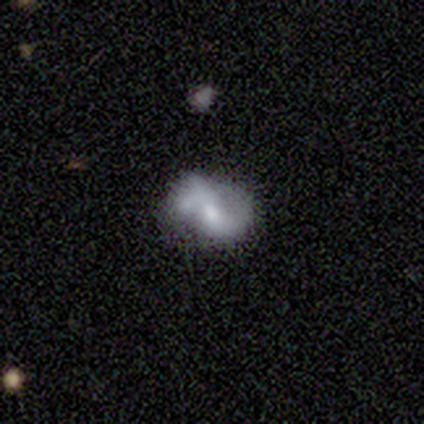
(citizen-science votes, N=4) Overall: featured or disk (100%). Edge-on disk: no (100%). Bar: weak (50%, tied with no). Spiral arms: yes (100%). Spiral arm count: 2 (75%). Spiral winding: loose (100%). Bulge size: large (50%; moderate 25%). Merging: none (50%, tied with merger).